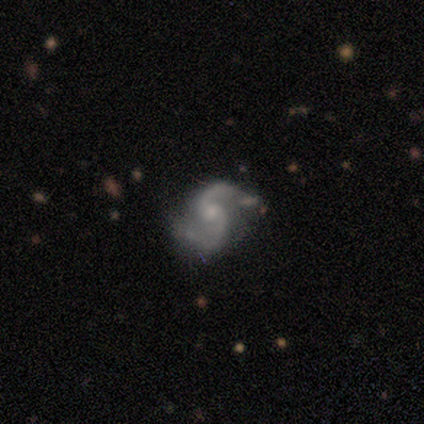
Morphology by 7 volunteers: type=featured or disk (100%); edge-on=no (100%); bar=no (86%); spiral arms=yes (100%); winding=medium (71%); arm count=2 (100%); bulge=small (71%); merging=none (43%, tied with minor disturbance).